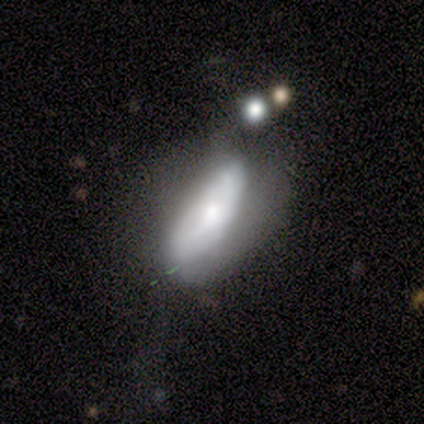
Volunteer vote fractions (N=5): smooth-or-featured: featured or disk: 60% | smooth: 40% | star or artifact: 0%
  disk-edge-on: yes: 67% | no: 33%
    edge-on-bulge: rounded: 100% | boxy: 0% | none: 0%
  merging: major disturbance: 40% | none: 20% | minor disturbance: 20% | merger: 20%